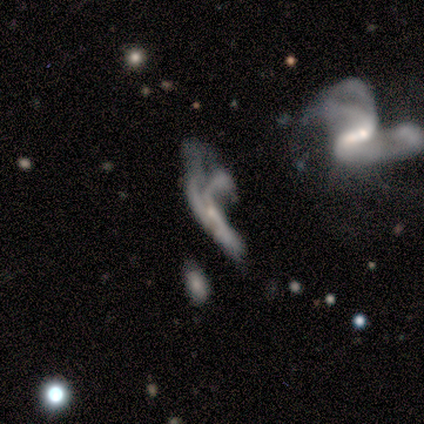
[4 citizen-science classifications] Smooth or featured?
  - featured or disk: 75% *
  - smooth: 25%
  - star or artifact: 0%
Edge-on disk?
  - no: 100% *
  - yes: 0%
Bar?
  - weak: 67% *
  - no: 33%
  - strong: 0%
Spiral arms?
  - yes: 67% *
  - no: 33%
Spiral winding?
  - loose: 100% *
  - tight: 0%
  - medium: 0%
Spiral arm count?
  - can't tell: 100% *
  - 1: 0%
  - 2: 0%
  - 3: 0%
  - 4: 0%
  - more than 4: 0%
Bulge size?
  - moderate: 33% * (tied)
  - small: 33% * (tied)
  - none: 33% * (tied)
  - dominant: 0%
  - large: 0%
Merging?
  - major disturbance: 50% * (tied)
  - merger: 50% * (tied)
  - none: 0%
  - minor disturbance: 0%